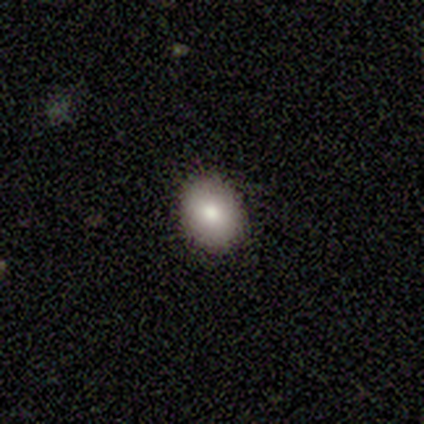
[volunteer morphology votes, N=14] smooth_or_featured: smooth (p=0.71) [alt: featured or disk p=0.21]
how_rounded: round (p=0.50) [tied with: in between p=0.50]
merging: none (p=0.85) [alt: minor disturbance p=0.08]